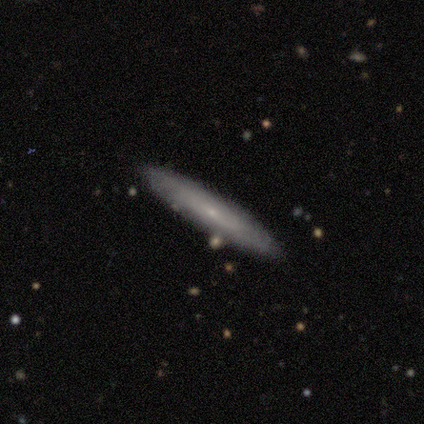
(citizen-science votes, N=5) Smooth or featured? 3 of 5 (60%) said featured or disk. Edge-on disk? 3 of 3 (100%) said yes. Edge-on bulge? 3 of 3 (100%) said rounded. Merging? 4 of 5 (80%) said none.